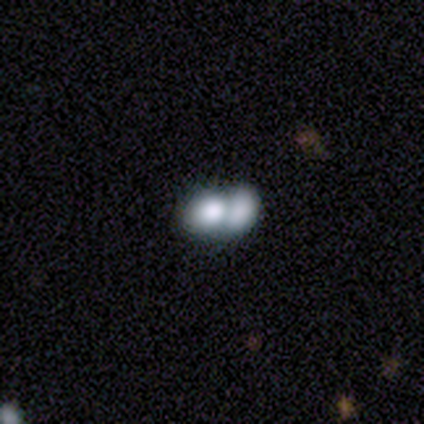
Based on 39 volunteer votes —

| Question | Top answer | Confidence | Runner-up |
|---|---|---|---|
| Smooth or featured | smooth | 67% | featured or disk (26%) |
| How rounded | in between | 62% | round (38%) |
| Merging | merger | 81% | none (11%) |